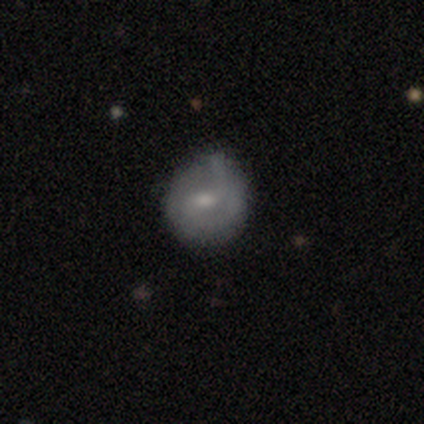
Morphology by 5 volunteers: A smooth galaxy with no disk features (80%) that is round (75%).

Vote fractions:
- Smooth or featured? smooth: 80% / featured or disk: 20% / star or artifact: 0%
- How rounded? round: 75% / in between: 25% / cigar-shaped: 0%
- Merging? none: 60% / minor disturbance: 40% / major disturbance: 0% / merger: 0%